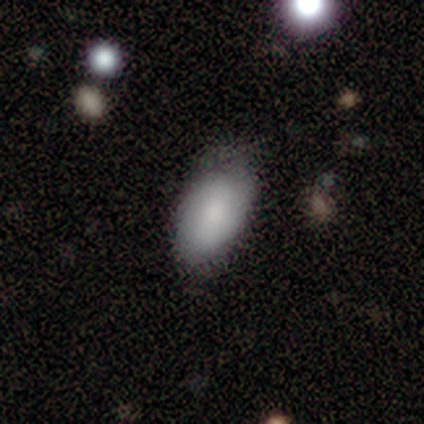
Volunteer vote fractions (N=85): This is likely a smooth galaxy (69%). How rounded: clearly in between (97%). Merging: likely none (70%).